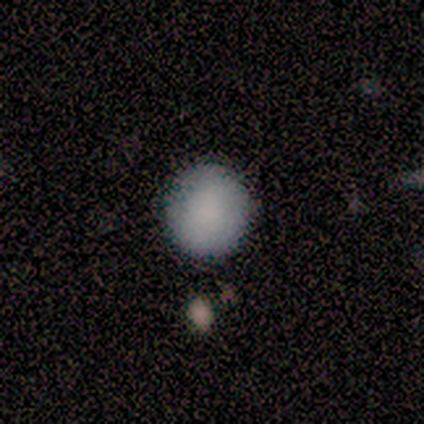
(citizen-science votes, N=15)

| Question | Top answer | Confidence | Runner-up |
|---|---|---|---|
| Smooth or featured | smooth | 87% | featured or disk (13%) |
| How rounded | round | 92% | in between (8%) |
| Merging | none | 87% | minor disturbance (13%) |